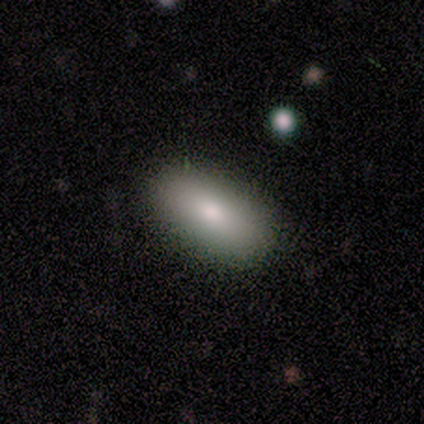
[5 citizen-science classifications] A smooth galaxy with no disk features (80%) that is in between round and cigar-shaped (75%).

Vote fractions:
- Smooth or featured? smooth: 80% / featured or disk: 20% / star or artifact: 0%
- How rounded? in between: 75% / cigar-shaped: 25% / round: 0%
- Merging? none: 60% / minor disturbance: 40% / major disturbance: 0% / merger: 0%